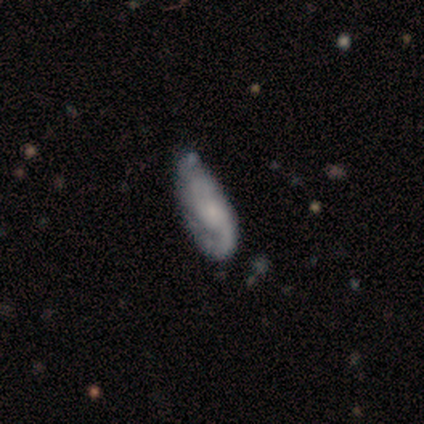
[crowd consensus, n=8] smooth_or_featured: featured or disk (p=0.50) [alt: smooth p=0.25]
disk_edge_on: no (p=1.00)
bar: no (p=0.50) [alt: strong p=0.25]
has_spiral_arms: yes (p=1.00)
spiral_winding: tight (p=0.50) [tied with: loose p=0.50]
spiral_arm_count: 1 (p=0.75) [alt: can't tell p=0.25]
bulge_size: small (p=0.50) [tied with: none p=0.50]
merging: none (p=0.67) [alt: minor disturbance p=0.17]